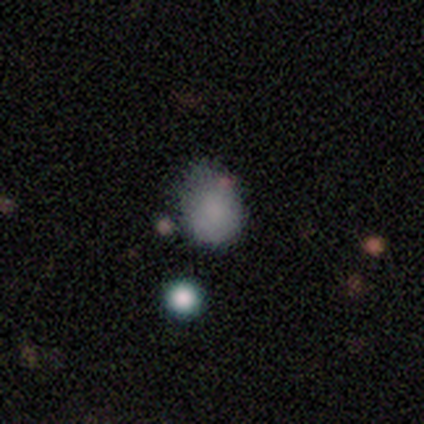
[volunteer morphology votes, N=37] type=smooth (78%); roundness=round (62%); merging=minor disturbance (58%).